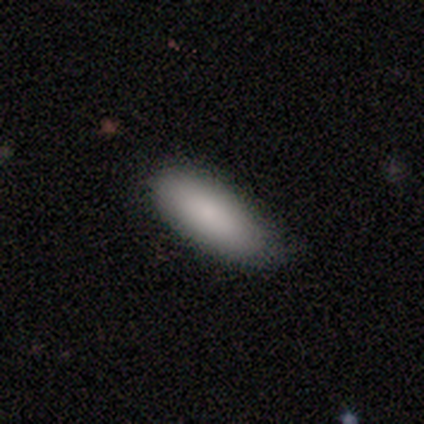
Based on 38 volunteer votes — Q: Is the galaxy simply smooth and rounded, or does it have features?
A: smooth — 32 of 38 (84%).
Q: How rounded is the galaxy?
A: in between — 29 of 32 (91%).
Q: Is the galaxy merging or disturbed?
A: none — 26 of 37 (70%).